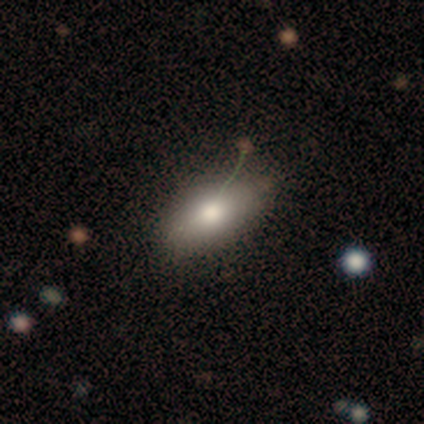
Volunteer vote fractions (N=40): smooth_or_featured: smooth (p=0.72) [alt: featured or disk p=0.17]
how_rounded: in between (p=0.93) [alt: round p=0.03]
merging: none (p=0.72) [alt: minor disturbance p=0.19]